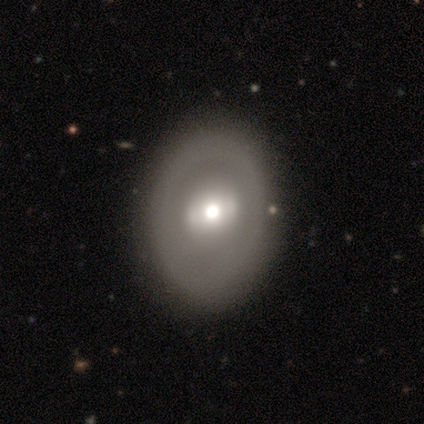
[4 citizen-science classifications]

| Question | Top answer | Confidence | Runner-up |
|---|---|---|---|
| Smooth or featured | smooth | 75% | featured or disk (25%) |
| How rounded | round | 67% | in between (33%) |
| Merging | none | 75% | minor disturbance (25%) |